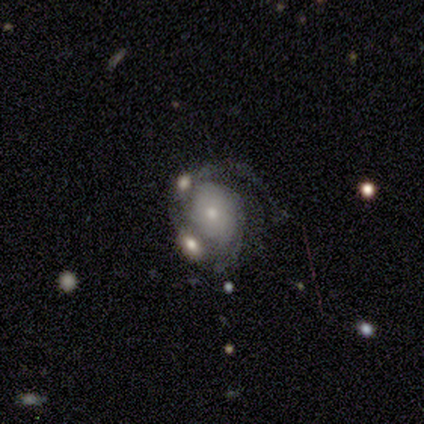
A featured or disk galaxy (60%) with no bar (67%), 1 (33%, tied with 2 and can't tell) medium (67%) spiral arms (100%) and a moderate central bulge (67%).

Vote fractions:
- Smooth or featured? featured or disk: 60% / star or artifact: 40% / smooth: 0%
- Edge-on disk? no: 100% / yes: 0%
- Bar? no: 67% / weak: 33% / strong: 0%
- Spiral arms? yes: 100% / no: 0%
- Spiral winding? medium: 67% / tight: 33% / loose: 0%
- Spiral arm count? 1: 33% (tied) / 2: 33% (tied) / can't tell: 33% (tied) / 3: 0% / 4: 0% / more than 4: 0%
- Bulge size? moderate: 67% / small: 33% / dominant: 0% / large: 0% / none: 0%
- Merging? none: 67% / merger: 33% / minor disturbance: 0% / major disturbance: 0%